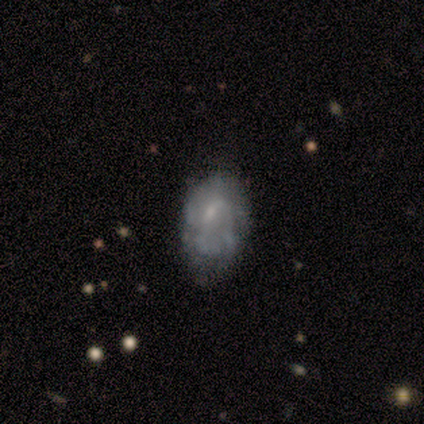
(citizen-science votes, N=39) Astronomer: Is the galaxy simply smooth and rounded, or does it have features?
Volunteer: featured or disk — 64%.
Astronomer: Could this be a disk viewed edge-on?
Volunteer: no — 100%.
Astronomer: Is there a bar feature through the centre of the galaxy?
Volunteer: no — 68%.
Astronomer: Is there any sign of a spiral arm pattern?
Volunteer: no — 64%.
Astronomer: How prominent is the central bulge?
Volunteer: small — 52%.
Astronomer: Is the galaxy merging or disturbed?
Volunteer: none — 51% (runner-up: minor disturbance, 27%).